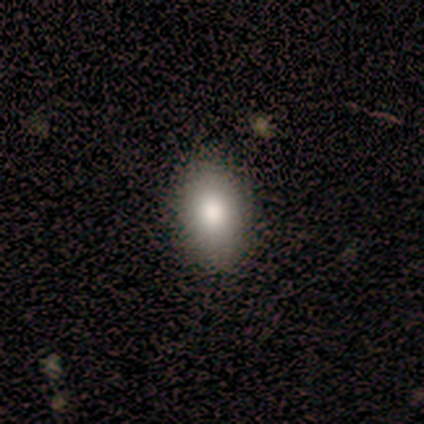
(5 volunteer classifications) This is clearly a smooth galaxy (100%). How rounded: likely in between (60%). Merging: clearly none (80%).